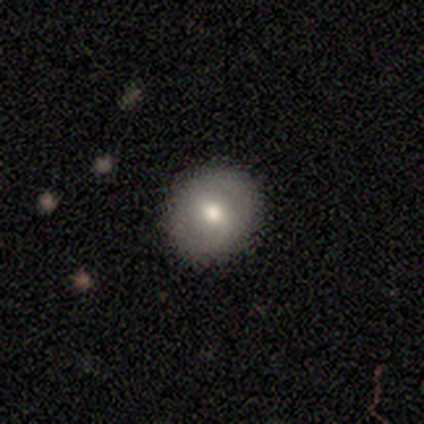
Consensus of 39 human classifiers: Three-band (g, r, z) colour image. It shows a smooth galaxy with no disk features (64%) that is round (84%). Merging: none (54%).